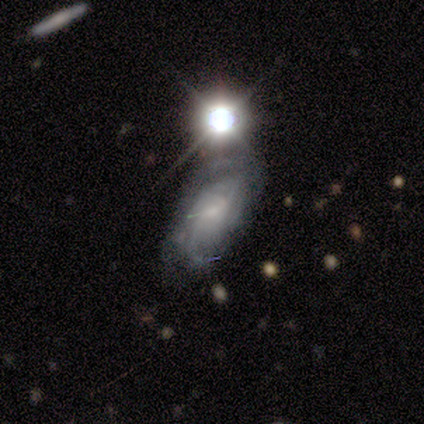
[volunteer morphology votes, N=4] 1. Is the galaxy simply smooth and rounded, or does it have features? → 50% smooth (tied), 50% featured or disk (tied), 0% star or artifact.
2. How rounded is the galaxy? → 100% in between, 0% round, 0% cigar-shaped.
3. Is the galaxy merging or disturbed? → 75% none, 25% merger, 0% minor disturbance, 0% major disturbance.